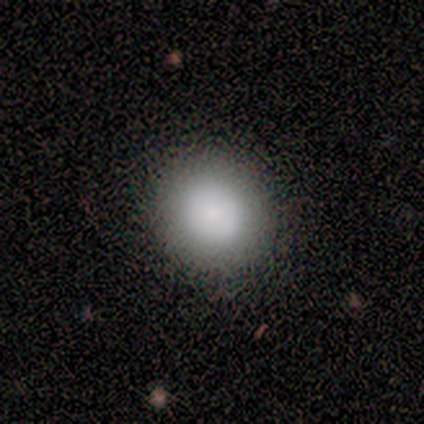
Volunteers were most divided on "smooth or featured": smooth: 60%, featured or disk: 40%, star or artifact: 0%. More confident: how rounded — round (100%); merging — none (80%).